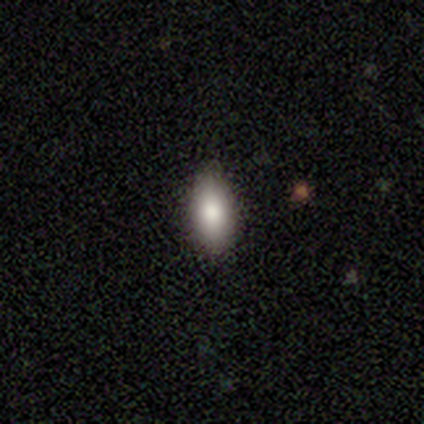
smooth-or-featured: smooth: 76% | star or artifact: 13% | featured or disk: 11%
  how-rounded: in between: 86% | cigar-shaped: 14% | round: 0%
  merging: none: 91% | minor disturbance: 9% | major disturbance: 0% | merger: 0%